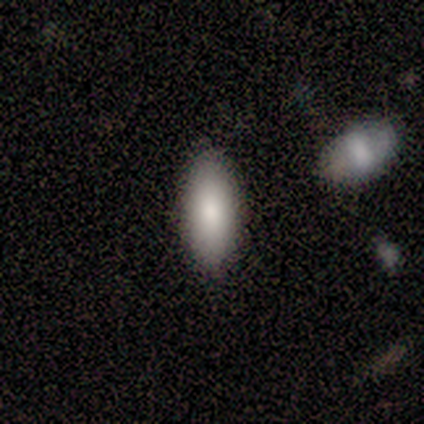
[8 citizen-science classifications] Smooth or featured? smooth (100%)
How rounded? in between (88%)
Merging? none (75%)